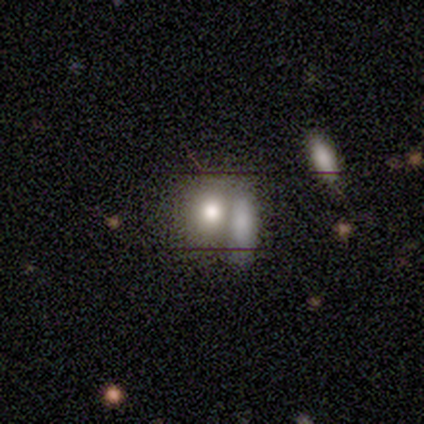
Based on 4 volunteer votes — Smooth or featured? 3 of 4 (75%) said smooth. How rounded? 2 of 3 (67%) said round. Merging? 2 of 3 (67%) said merger.